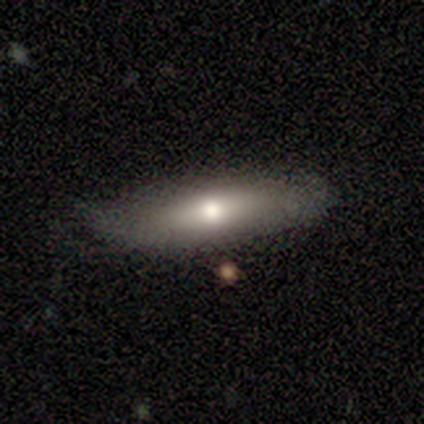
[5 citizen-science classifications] Volunteers were most divided on "how rounded" (2-way tie): in between: 50%, cigar-shaped: 50%, round: 0%; "merging" (2-way tie): none: 40%, major disturbance: 40%, minor disturbance: 20%, merger: 0%. More confident: smooth or featured — smooth (80%).